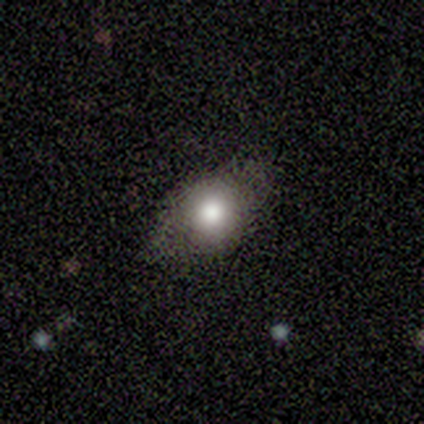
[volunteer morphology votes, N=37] Smooth or featured?
  - smooth: 62% *
  - star or artifact: 24%
  - featured or disk: 14%
How rounded?
  - in between: 65% *
  - round: 30%
  - cigar-shaped: 4%
Merging?
  - none: 82% *
  - major disturbance: 7%
  - merger: 7%
  - minor disturbance: 4%